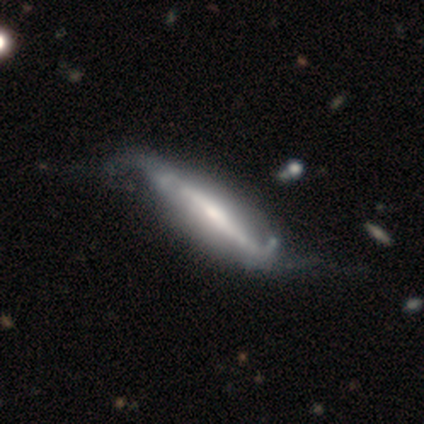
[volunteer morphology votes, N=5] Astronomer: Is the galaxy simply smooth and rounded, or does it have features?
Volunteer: featured or disk — 80%.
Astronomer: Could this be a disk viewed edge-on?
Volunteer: yes — 50%, tied with no at 50%.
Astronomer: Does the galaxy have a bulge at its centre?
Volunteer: rounded — 100%.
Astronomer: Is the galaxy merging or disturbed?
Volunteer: none — 40%, tied with minor disturbance at 40%.